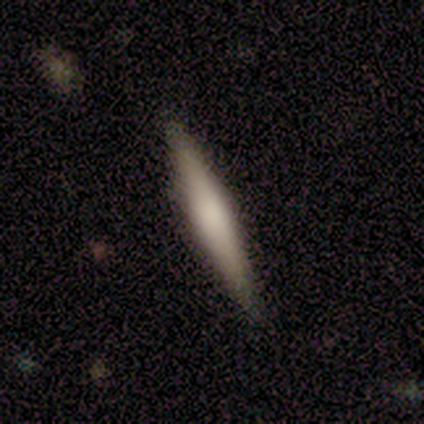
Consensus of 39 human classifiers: smooth-or-featured: smooth: 51% | featured or disk: 46% | star or artifact: 3%
  how-rounded: cigar-shaped: 85% | in between: 15% | round: 0%
  merging: none: 89% | minor disturbance: 8% | major disturbance: 3% | merger: 0%